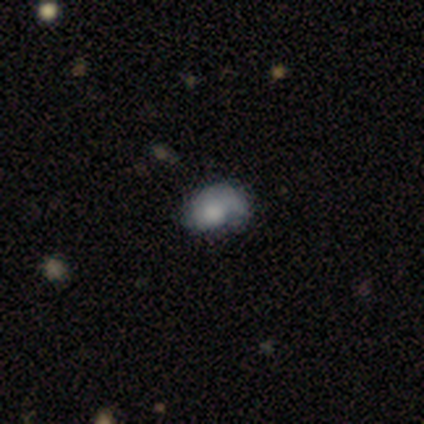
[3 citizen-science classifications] Volunteers were most divided on "smooth or featured": featured or disk: 67%, smooth: 33%, star or artifact: 0%. More confident: edge-on disk — no (100%); bar — no (100%); spiral arms — no (100%); bulge size — moderate (100%); merging — minor disturbance (67%).